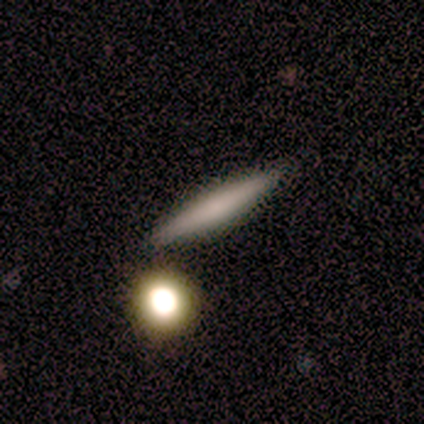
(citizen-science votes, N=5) Smooth or featured: smooth — 60% (featured or disk — 20%)
How rounded: cigar-shaped — 100%
Merging: none — 100%